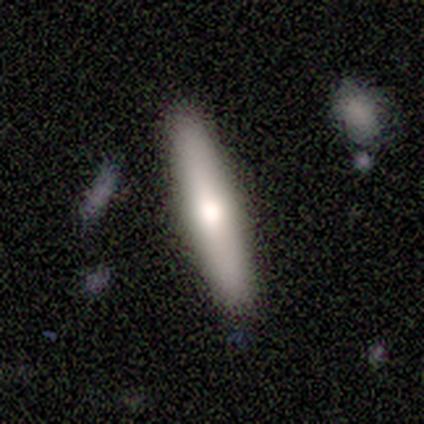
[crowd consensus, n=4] Q: Smooth or featured?
A: featured or disk (75%); runner-up: smooth (25%)
Q: Edge-on disk?
A: yes (67%); runner-up: no (33%)
Q: Edge-on bulge?
A: rounded (100%)
Q: Merging?
A: none (75%); runner-up: minor disturbance (25%)